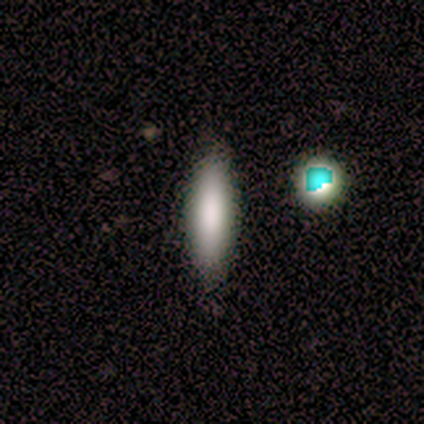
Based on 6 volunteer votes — Smooth or featured: smooth — 100%
How rounded: in between — 83% (cigar-shaped — 17%)
Merging: none — 67% (minor disturbance — 17%)